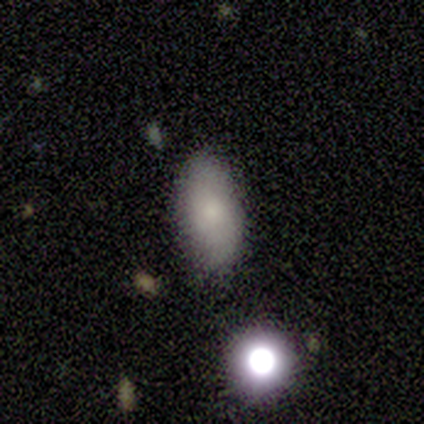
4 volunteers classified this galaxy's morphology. This is clearly a smooth galaxy (100%). How rounded: clearly in between (100%). Merging: clearly none (100%).